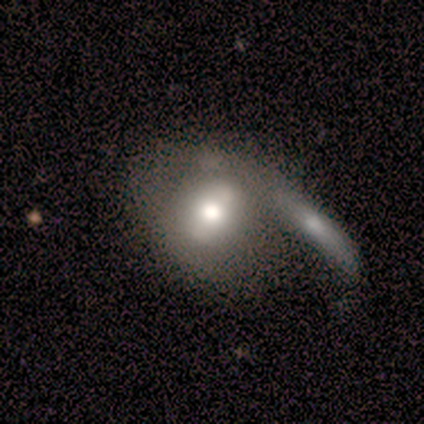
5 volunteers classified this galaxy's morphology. type=smooth (80%); roundness=in between (75%); merging=merger (80%).